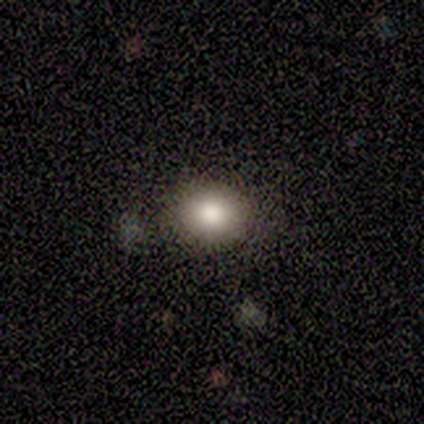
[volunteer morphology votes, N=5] Volunteers were most divided on "how rounded" (2-way tie): round: 50%, in between: 50%, cigar-shaped: 0%. More confident: merging — none (100%); smooth or featured — smooth (80%).